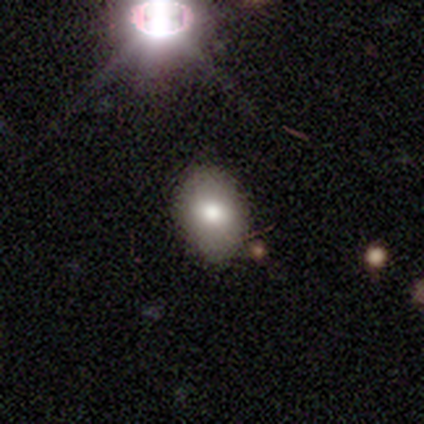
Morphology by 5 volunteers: smooth_or_featured: smooth (p=0.80) [alt: featured or disk p=0.20]
how_rounded: in between (p=1.00)
merging: none (p=0.60) [alt: minor disturbance p=0.40]